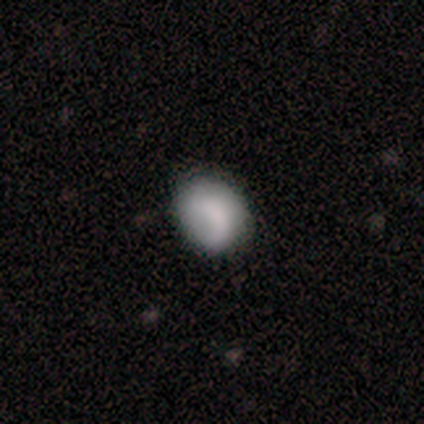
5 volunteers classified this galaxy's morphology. smooth-or-featured: smooth: 100% | featured or disk: 0% | star or artifact: 0%
  how-rounded: round: 60% | in between: 40% | cigar-shaped: 0%
  merging: none: 80% | major disturbance: 20% | minor disturbance: 0% | merger: 0%